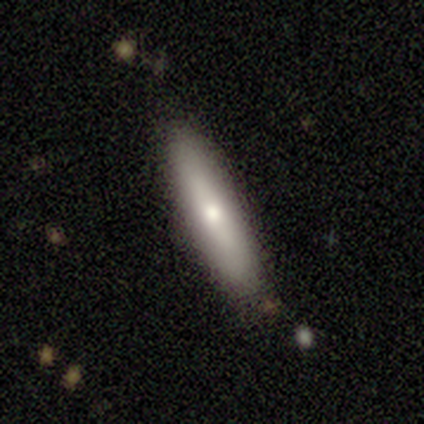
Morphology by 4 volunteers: A smooth galaxy with no disk features (75%) that is cigar-shaped (100%).

Vote fractions:
- Smooth or featured? smooth: 75% / featured or disk: 25% / star or artifact: 0%
- How rounded? cigar-shaped: 100% / round: 0% / in between: 0%
- Merging? none: 75% / major disturbance: 25% / minor disturbance: 0% / merger: 0%